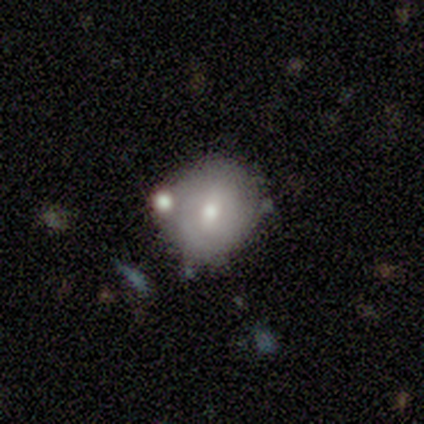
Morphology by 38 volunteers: Smooth or featured? 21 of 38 (55%) said smooth. How rounded? 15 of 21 (71%) said round. Merging? 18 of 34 (53%) said none.